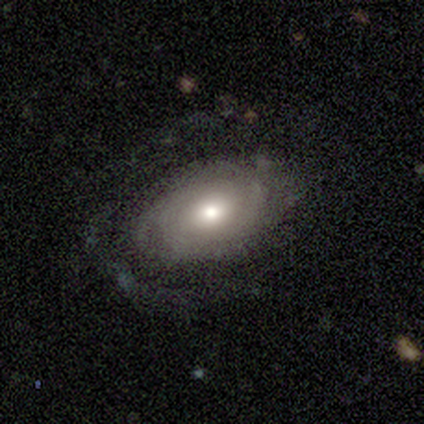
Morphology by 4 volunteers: This is likely a featured or disk galaxy (75%). It is clearly not viewed edge-on (100%). Bar: clearly no (100%). Spiral arm pattern: likely no (67%). Central bulge: likely moderate (67%). Merging: possibly minor disturbance (50%).